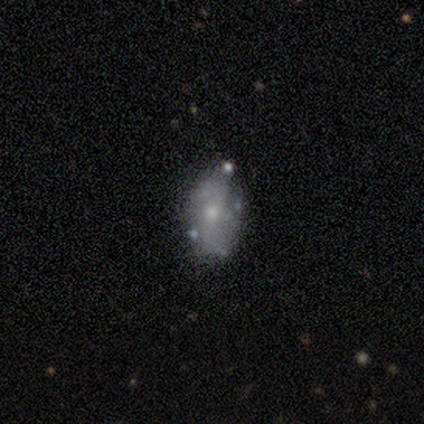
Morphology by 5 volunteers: Smooth or featured?
  - smooth: 60% *
  - featured or disk: 20%
  - star or artifact: 20%
How rounded?
  - in between: 100% *
  - round: 0%
  - cigar-shaped: 0%
Merging?
  - minor disturbance: 75% *
  - none: 25%
  - major disturbance: 0%
  - merger: 0%